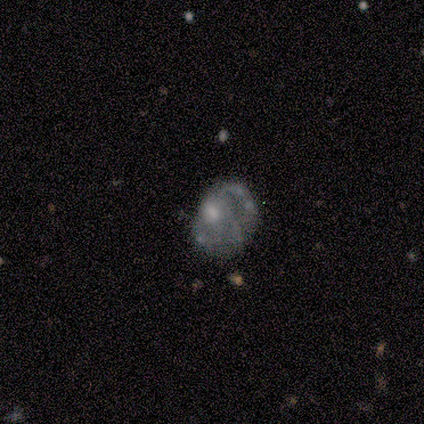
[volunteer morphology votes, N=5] A featured or disk galaxy (80%) with no bar (75%), no spiral arms (75%) and a moderate central bulge (75%). Merging: none (60%).